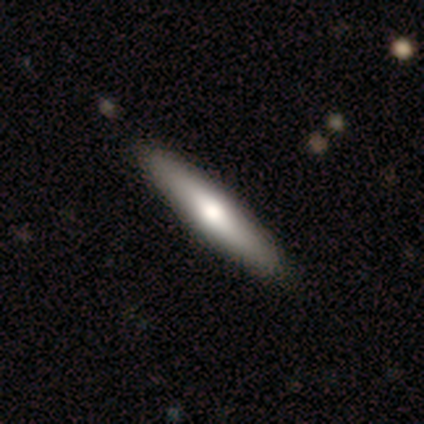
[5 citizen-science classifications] Smooth or featured? smooth (80%)
How rounded? cigar-shaped (75%)
Merging? none (100%)